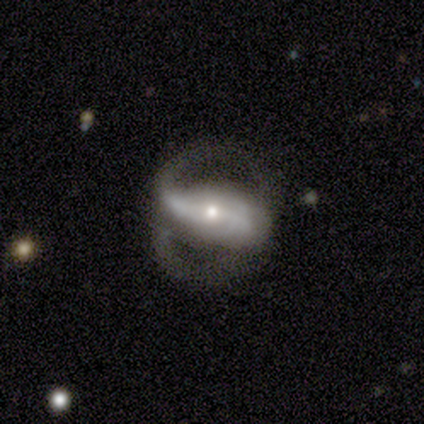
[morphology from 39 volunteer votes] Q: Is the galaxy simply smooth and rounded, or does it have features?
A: featured or disk — 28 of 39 (72%).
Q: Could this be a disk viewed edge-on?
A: no — 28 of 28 (100%).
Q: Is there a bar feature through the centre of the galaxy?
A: strong — 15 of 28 (54%).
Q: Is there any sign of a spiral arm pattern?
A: yes — 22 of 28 (79%).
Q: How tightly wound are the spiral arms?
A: medium — 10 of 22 (45%).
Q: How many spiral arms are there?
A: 2 — 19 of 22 (86%).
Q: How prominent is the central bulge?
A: small — 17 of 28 (61%).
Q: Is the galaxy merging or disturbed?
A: none — 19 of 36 (53%).